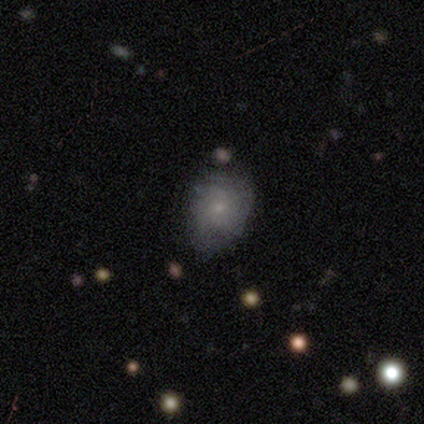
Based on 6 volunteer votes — This appears to be a featured or disk galaxy (67%) with no bar (100%), 2 (50%, tied with more than 4) tight (50%, tied with medium) spiral arms (50%, tied with no) and a small central bulge (75%). Merging: none (83%).